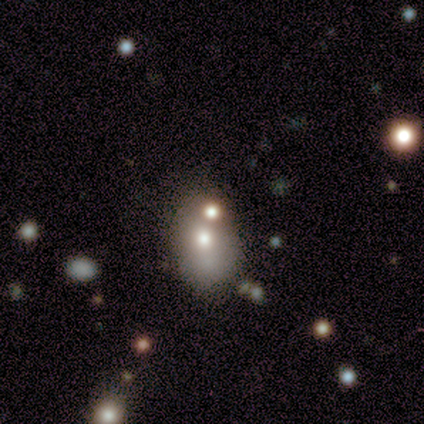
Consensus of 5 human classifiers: smooth_or_featured: featured or disk (p=0.60) [alt: smooth p=0.40]
disk_edge_on: no (p=1.00)
bar: no (p=1.00)
has_spiral_arms: no (p=1.00)
bulge_size: moderate (p=0.67) [alt: small p=0.33]
merging: none (p=0.40) [tied with: minor disturbance p=0.40]